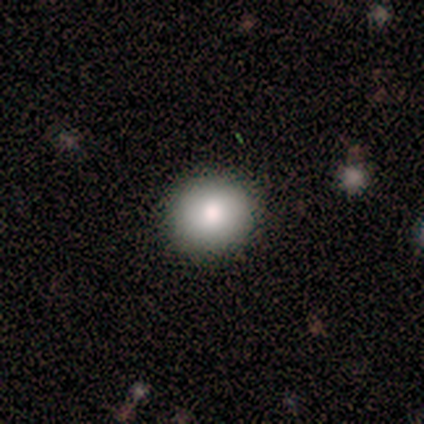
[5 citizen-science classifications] Smooth or featured?
  - smooth: 100% *
  - featured or disk: 0%
  - star or artifact: 0%
How rounded?
  - round: 80% *
  - in between: 20%
  - cigar-shaped: 0%
Merging?
  - none: 100% *
  - minor disturbance: 0%
  - major disturbance: 0%
  - merger: 0%